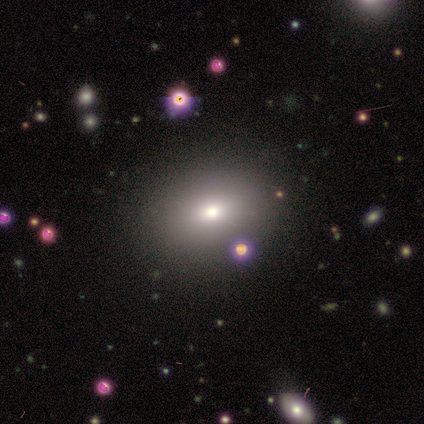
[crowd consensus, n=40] This appears to be a smooth galaxy with no disk features (70%) that is in between round and cigar-shaped (71%). Merging: none (97%).